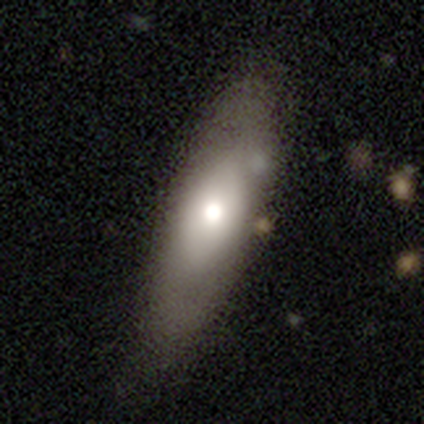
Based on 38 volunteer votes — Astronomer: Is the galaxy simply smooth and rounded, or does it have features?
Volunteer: smooth — 61%.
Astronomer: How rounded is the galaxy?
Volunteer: in between — 52% (runner-up: cigar-shaped, 39%).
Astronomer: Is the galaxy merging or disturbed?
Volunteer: none — 83%.